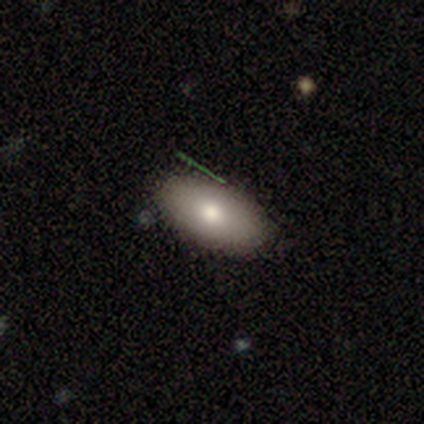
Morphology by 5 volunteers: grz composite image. It shows a smooth galaxy with no disk features (80%) that is in between round and cigar-shaped (100%). Merging: none (80%).